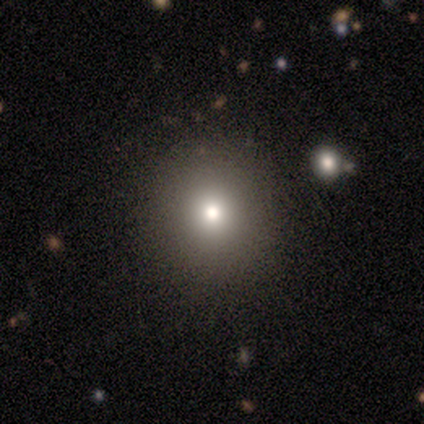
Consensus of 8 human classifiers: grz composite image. It shows a smooth galaxy with no disk features (75%) that is round (100%). Merging: none (100%).